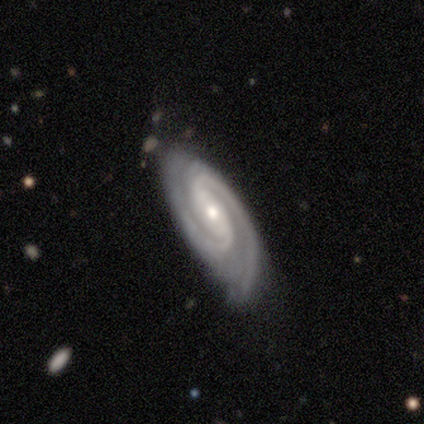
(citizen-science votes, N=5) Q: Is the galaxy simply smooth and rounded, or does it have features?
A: featured or disk — 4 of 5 (80%).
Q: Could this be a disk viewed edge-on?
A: no — 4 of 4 (100%).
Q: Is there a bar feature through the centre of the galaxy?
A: no — 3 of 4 (75%).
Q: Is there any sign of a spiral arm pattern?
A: yes — 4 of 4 (100%).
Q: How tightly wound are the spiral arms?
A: tight — 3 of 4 (75%).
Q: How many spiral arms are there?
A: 2 — 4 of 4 (100%).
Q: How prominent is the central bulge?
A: small — 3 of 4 (75%).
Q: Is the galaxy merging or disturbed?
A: none — 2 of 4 (50%, tied with minor disturbance).